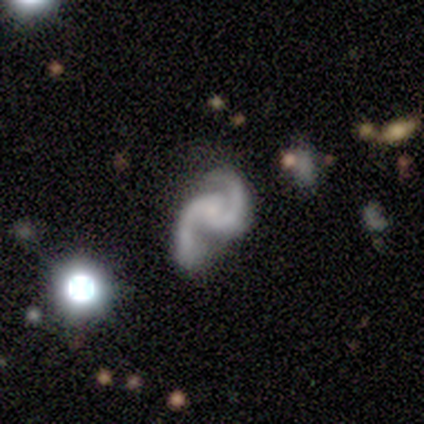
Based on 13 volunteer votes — featured or disk 92%, star or artifact 8%, smooth 0%. Down the decision tree: edge-on disk — no (100%); bar — no (50%); spiral arms — yes (92%); spiral arm count — 2 (100%); spiral winding — loose (55%); bulge size — small (75%); merging — none (67%).